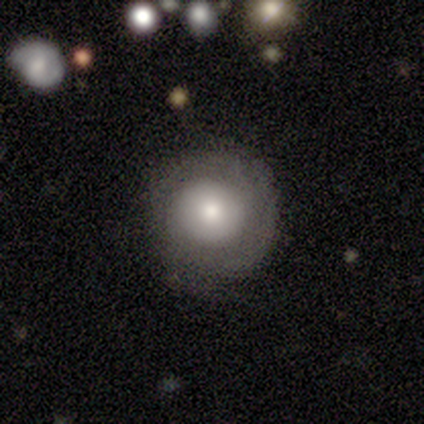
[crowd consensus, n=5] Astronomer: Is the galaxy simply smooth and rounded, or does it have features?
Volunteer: smooth — 60% (runner-up: featured or disk, 40%).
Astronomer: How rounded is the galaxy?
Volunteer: round — 100%.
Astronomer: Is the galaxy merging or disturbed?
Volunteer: none — 80%.